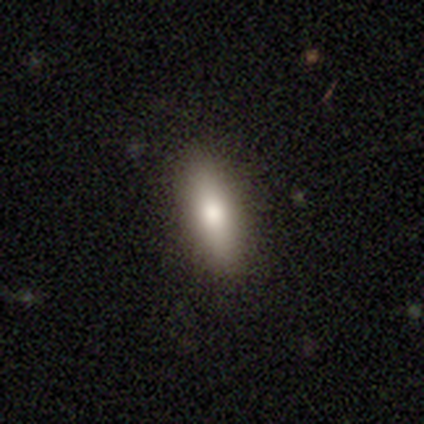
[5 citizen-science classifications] A smooth galaxy with no disk features (100%) that is cigar-shaped (60%).

Vote fractions:
- Smooth or featured? smooth: 100% / featured or disk: 0% / star or artifact: 0%
- How rounded? cigar-shaped: 60% / in between: 40% / round: 0%
- Merging? none: 100% / minor disturbance: 0% / major disturbance: 0% / merger: 0%